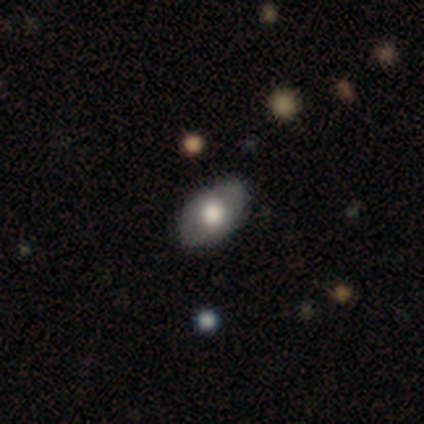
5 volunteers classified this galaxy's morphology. smooth 60%, featured or disk 40%, star or artifact 0%. Down the decision tree: how rounded — in between (100%); merging — none (60%).